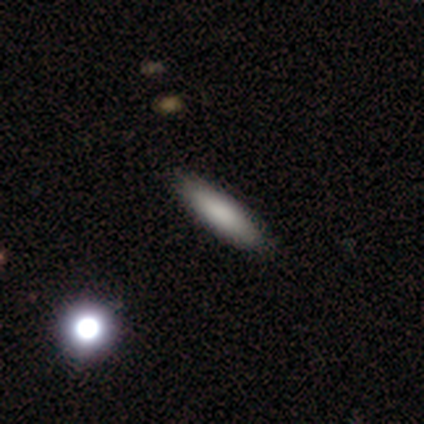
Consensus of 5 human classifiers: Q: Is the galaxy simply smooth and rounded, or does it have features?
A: smooth — 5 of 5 (100%).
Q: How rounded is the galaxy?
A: cigar-shaped — 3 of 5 (60%).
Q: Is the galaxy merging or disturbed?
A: none — 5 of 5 (100%).